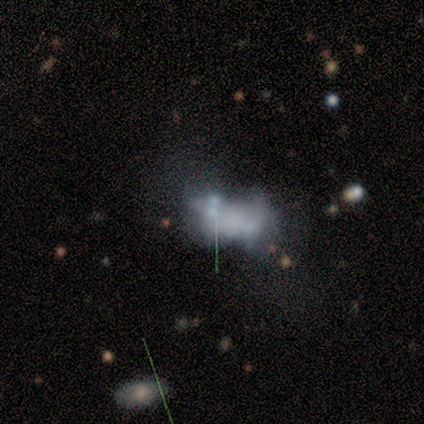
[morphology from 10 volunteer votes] smooth-or-featured: featured or disk: 50% | smooth: 30% | star or artifact: 20%
  disk-edge-on: no: 100% | yes: 0%
    bar: no: 100% | strong: 0% | weak: 0%
    has-spiral-arms: no: 100% | yes: 0%
    bulge-size: none: 100% | dominant: 0% | large: 0% | moderate: 0% | small: 0%
  merging: merger: 50% | none: 25% | minor disturbance: 12% | major disturbance: 12%